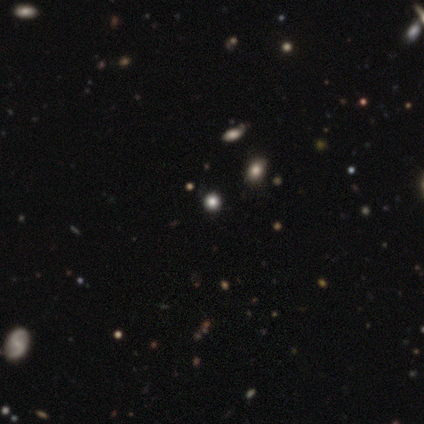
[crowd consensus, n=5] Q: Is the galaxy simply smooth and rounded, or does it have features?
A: star or artifact — 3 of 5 (60%).